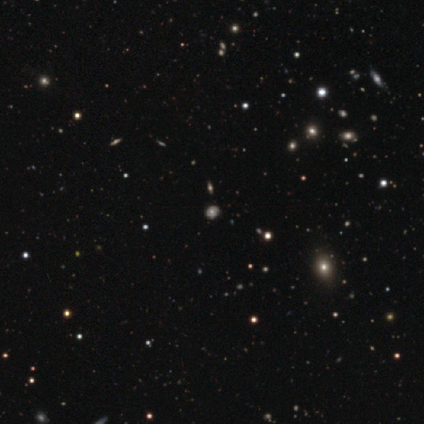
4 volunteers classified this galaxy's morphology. A star or artifact, not a galaxy (75%).